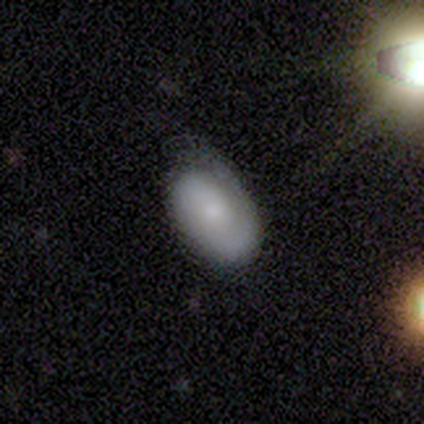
Smooth or featured?
  - featured or disk: 60% *
  - smooth: 40%
  - star or artifact: 0%
Edge-on disk?
  - no: 100% *
  - yes: 0%
Bar?
  - no: 100% *
  - strong: 0%
  - weak: 0%
Spiral arms?
  - no: 67% *
  - yes: 33%
Bulge size?
  - small: 67% *
  - moderate: 33%
  - dominant: 0%
  - large: 0%
  - none: 0%
Merging?
  - none: 100% *
  - minor disturbance: 0%
  - major disturbance: 0%
  - merger: 0%